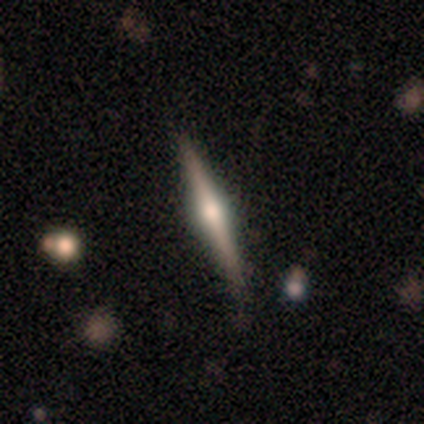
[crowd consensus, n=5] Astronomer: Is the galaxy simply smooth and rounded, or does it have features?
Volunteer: featured or disk — 80%.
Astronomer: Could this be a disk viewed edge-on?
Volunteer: yes — 100%.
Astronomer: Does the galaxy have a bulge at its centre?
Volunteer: rounded — 100%.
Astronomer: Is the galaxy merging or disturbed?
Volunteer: none — 80%.